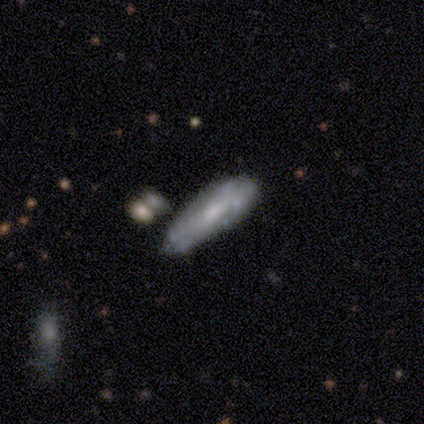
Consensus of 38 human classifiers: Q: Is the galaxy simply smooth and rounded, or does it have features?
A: smooth — 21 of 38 (55%).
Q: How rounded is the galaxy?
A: cigar-shaped — 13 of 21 (62%).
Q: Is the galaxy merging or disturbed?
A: none — 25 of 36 (69%).